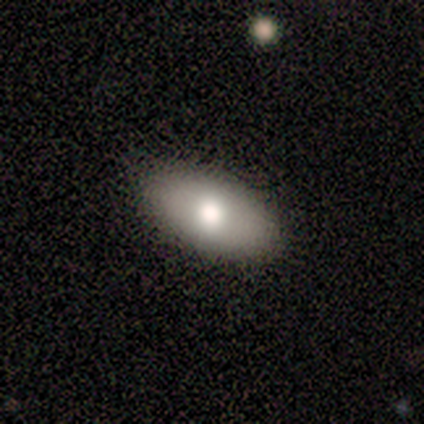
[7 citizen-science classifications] This appears to be a smooth galaxy with no disk features (71%) that is in between round and cigar-shaped (80%). Merging: none (100%).